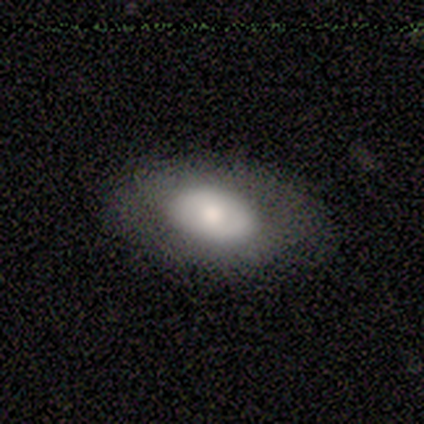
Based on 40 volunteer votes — Overall: smooth (50%; featured or disk 48%). How rounded: in between (95%). Merging: none (64%).